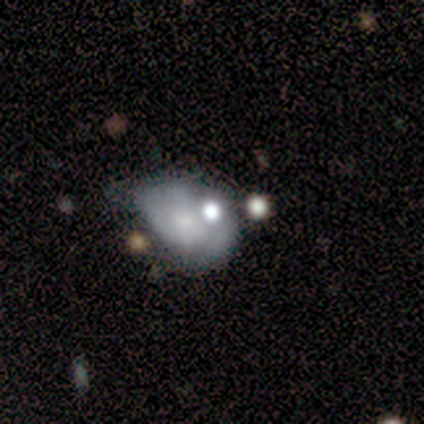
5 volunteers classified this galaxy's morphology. This appears to be a smooth galaxy with no disk features (80%) that is round (50%, tied with in between). Merging: major disturbance (75%).